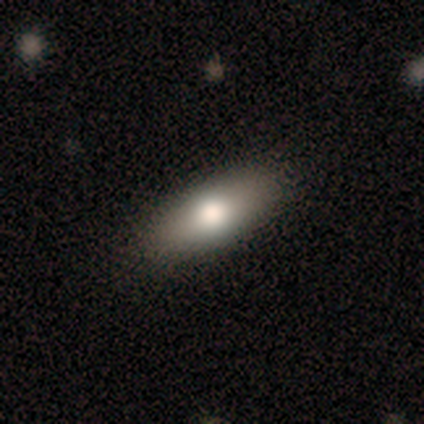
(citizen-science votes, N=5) This appears to be a smooth galaxy with no disk features (40%, tied with featured or disk) that is in between round and cigar-shaped (100%). Merging: none (100%).